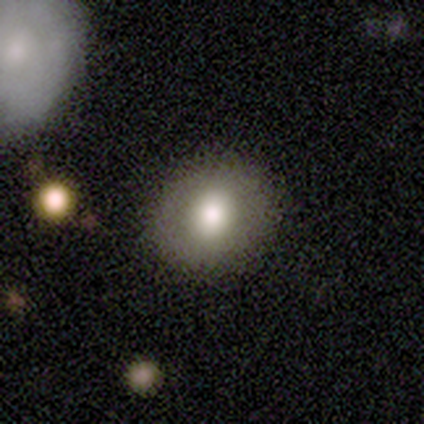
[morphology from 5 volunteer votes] Smooth or featured? smooth (60%)
How rounded? round (67%)
Merging? none (100%)